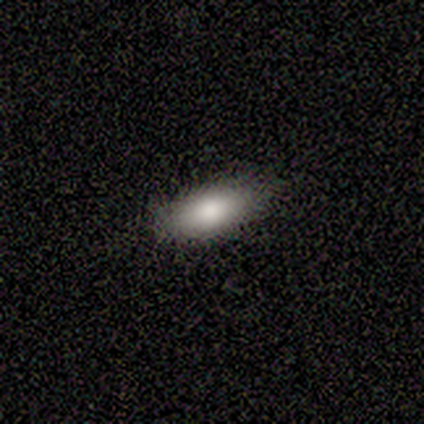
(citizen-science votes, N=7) This is clearly a smooth galaxy (100%). How rounded: clearly in between (100%). Merging: likely none (71%).